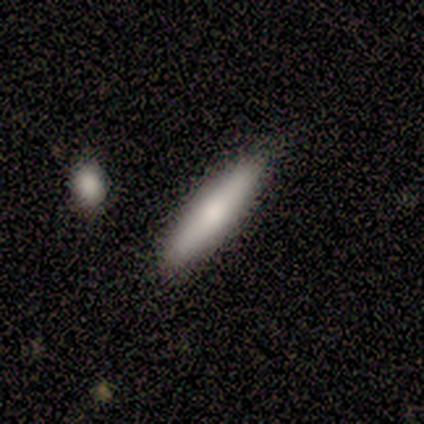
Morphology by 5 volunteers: Smooth or featured: smooth — 80% (featured or disk — 20%)
How rounded: cigar-shaped — 75% (in between — 25%)
Merging: none — 100%